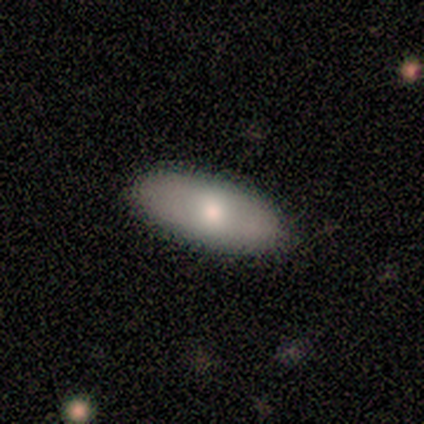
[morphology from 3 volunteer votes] Smooth or featured: smooth — 67% (featured or disk — 33%)
How rounded: in between — 100%
Merging: none — 100%